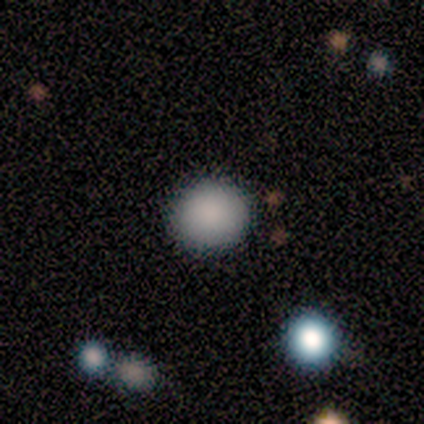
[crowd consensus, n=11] Q: Smooth or featured?
A: smooth (82%); runner-up: star or artifact (18%)
Q: How rounded?
A: round (89%); runner-up: in between (11%)
Q: Merging?
A: none (100%)